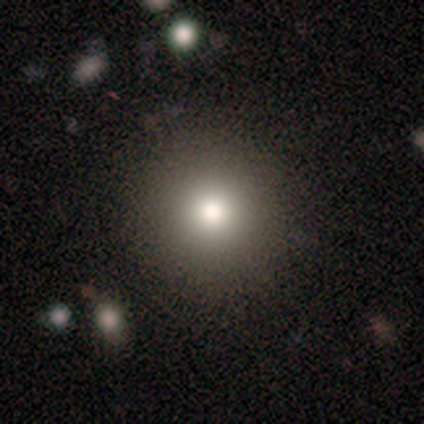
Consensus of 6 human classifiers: Q: Smooth or featured?
A: smooth (50%); runner-up: star or artifact (33%)
Q: How rounded?
A: round (100%)
Q: Merging?
A: none (100%)